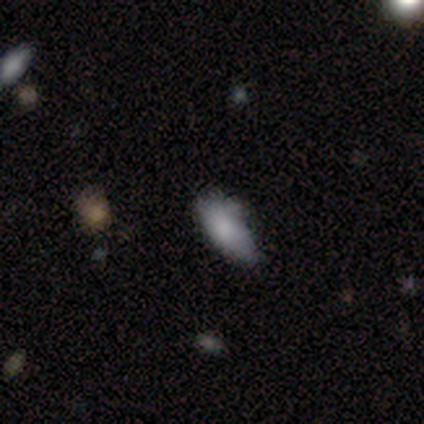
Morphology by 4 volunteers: A smooth galaxy with no disk features (100%) that is in between round and cigar-shaped (75%).

Vote fractions:
- Smooth or featured? smooth: 100% / featured or disk: 0% / star or artifact: 0%
- How rounded? in between: 75% / cigar-shaped: 25% / round: 0%
- Merging? none: 50% (tied) / minor disturbance: 50% (tied) / major disturbance: 0% / merger: 0%